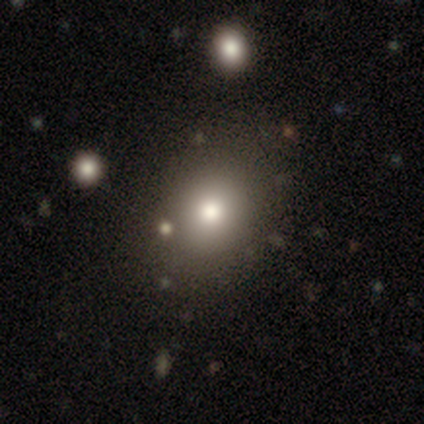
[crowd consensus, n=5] Smooth or featured?
  - smooth: 60% *
  - star or artifact: 40%
  - featured or disk: 0%
How rounded?
  - in between: 100% *
  - round: 0%
  - cigar-shaped: 0%
Merging?
  - none: 100% *
  - minor disturbance: 0%
  - major disturbance: 0%
  - merger: 0%